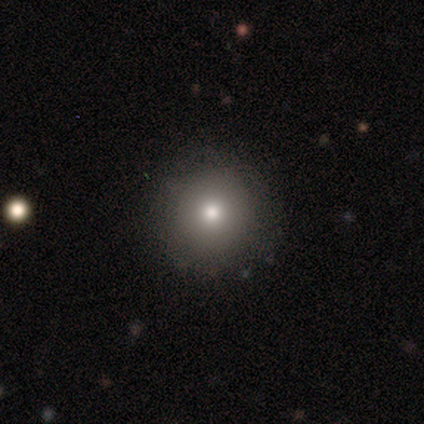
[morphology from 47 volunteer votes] Overall: smooth (77%). How rounded: round (97%). Merging: none (92%).